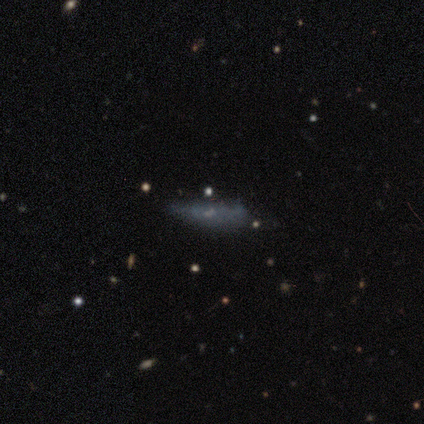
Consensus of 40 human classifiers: Morphology: type=smooth (48%); roundness=cigar-shaped (89%); merging=none (61%).